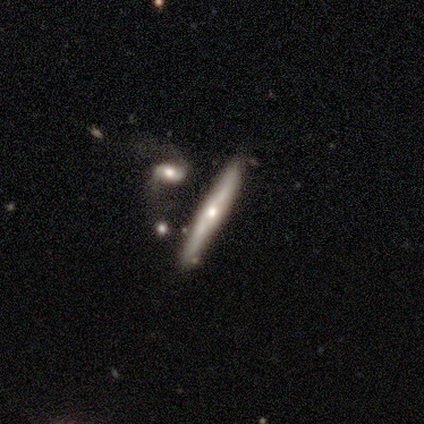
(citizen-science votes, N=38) Volunteers were most divided on "smooth or featured": featured or disk: 61%, smooth: 34%, star or artifact: 5%. More confident: edge-on disk — yes (91%); edge-on bulge — rounded (90%); merging — none (61%).